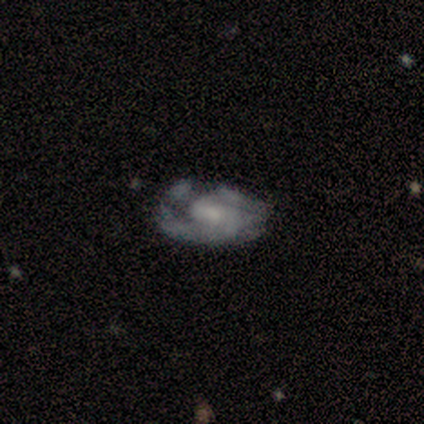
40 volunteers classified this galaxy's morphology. This is clearly a featured or disk galaxy (85%). It is clearly not viewed edge-on (97%). Bar: likely no (64%). Spiral arm pattern: likely yes (67%). Spiral arm count: likely 2 (64%). Spiral winding: possibly medium (50%). Central bulge: possibly small (52%). Merging: marginally none (39%).